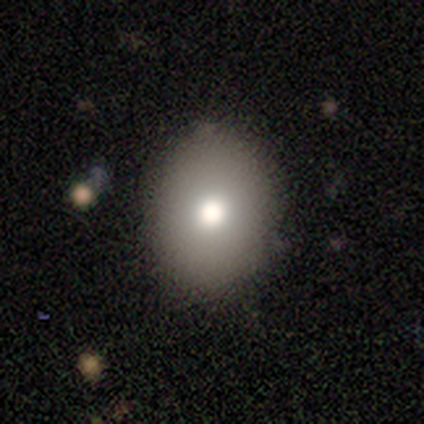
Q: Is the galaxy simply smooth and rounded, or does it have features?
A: smooth — 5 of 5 (100%).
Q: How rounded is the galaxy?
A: in between — 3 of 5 (60%).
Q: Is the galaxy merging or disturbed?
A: none — 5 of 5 (100%).